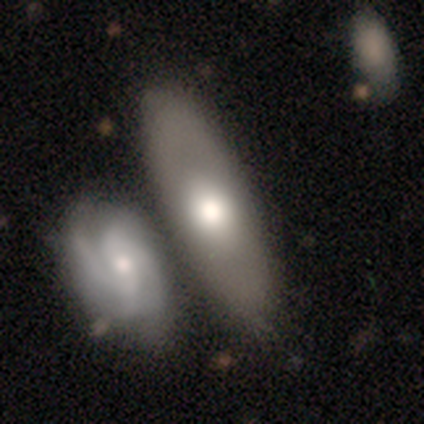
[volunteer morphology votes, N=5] Smooth or featured?
  - smooth: 60% *
  - featured or disk: 40%
  - star or artifact: 0%
How rounded?
  - cigar-shaped: 67% *
  - in between: 33%
  - round: 0%
Merging?
  - none: 60% *
  - minor disturbance: 20%
  - merger: 20%
  - major disturbance: 0%